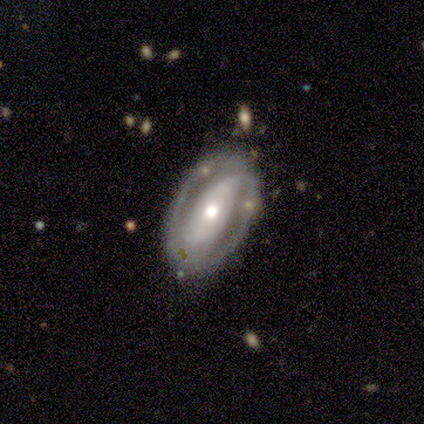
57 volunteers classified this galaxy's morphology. featured or disk 79%, smooth 14%, star or artifact 7%. Down the decision tree: edge-on disk — no (100%); bar — no (44%); spiral arms — yes (82%); spiral arm count — 2 (92%); spiral winding — tight (51%); bulge size — moderate (56%); merging — none (75%).